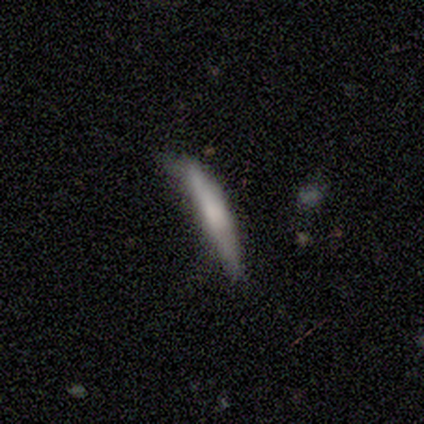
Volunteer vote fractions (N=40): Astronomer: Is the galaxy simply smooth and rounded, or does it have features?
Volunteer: smooth — 62%.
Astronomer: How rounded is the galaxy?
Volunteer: cigar-shaped — 100%.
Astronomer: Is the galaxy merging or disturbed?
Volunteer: none — 42% (runner-up: minor disturbance, 35%).